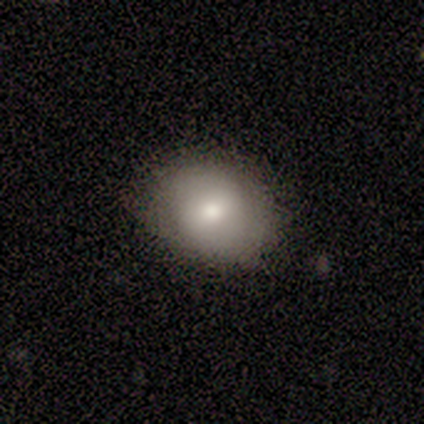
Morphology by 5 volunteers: Smooth or featured? 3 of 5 (60%) said smooth. How rounded? 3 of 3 (100%) said in between. Merging? 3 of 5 (60%) said none.